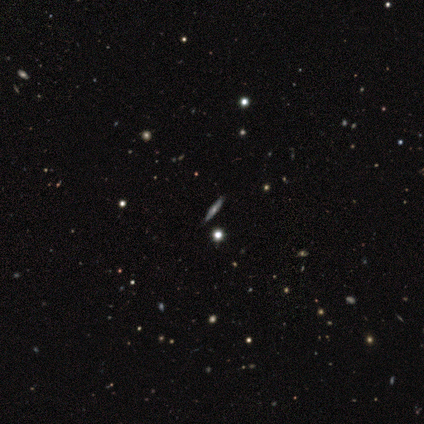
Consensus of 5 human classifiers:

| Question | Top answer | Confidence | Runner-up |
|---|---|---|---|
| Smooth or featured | featured or disk | 100% | — |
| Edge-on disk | yes | 60% | no (40%) |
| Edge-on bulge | rounded | 100% | — |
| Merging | none | 100% | — |